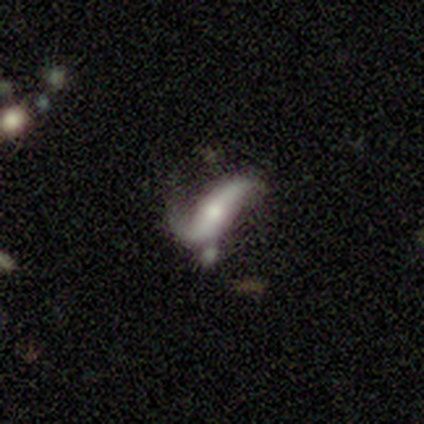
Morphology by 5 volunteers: Q: Smooth or featured?
A: featured or disk (80%); runner-up: smooth (20%)
Q: Edge-on disk?
A: no (75%); runner-up: yes (25%)
Q: Bar?
A: no (67%); runner-up: weak (33%)
Q: Spiral arms?
A: yes (100%)
Q: Spiral winding?
A: loose (100%)
Q: Spiral arm count?
A: 2 (100%)
Q: Bulge size?
A: moderate (100%)
Q: Merging?
A: minor disturbance (100%)